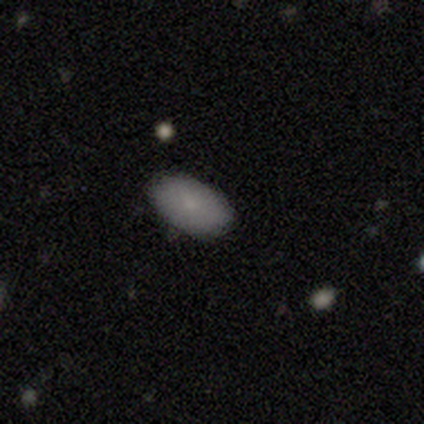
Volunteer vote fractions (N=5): Morphology: type=smooth (100%); roundness=in between (100%); merging=none (100%).